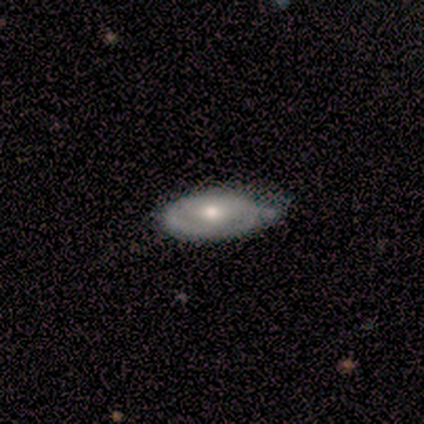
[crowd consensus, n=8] Smooth or featured? featured or disk (75%)
Edge-on disk? no (83%)
Bar? no (60%)
Spiral arms? no (80%)
Bulge size? moderate (80%)
Merging? minor disturbance (50%)